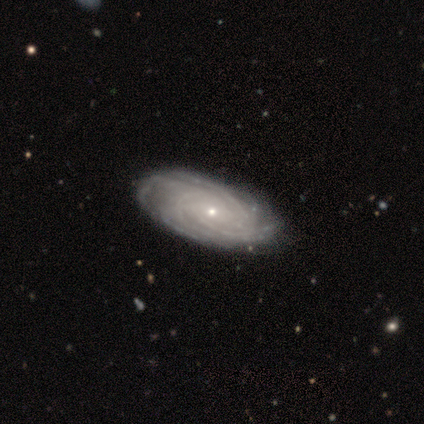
Morphology: type=featured or disk (100%); edge-on=no (100%); bar=no (60%); spiral arms=yes (100%); winding=medium (60%); arm count=3 (40%, tied with more than 4); bulge=small (80%); merging=none (100%).